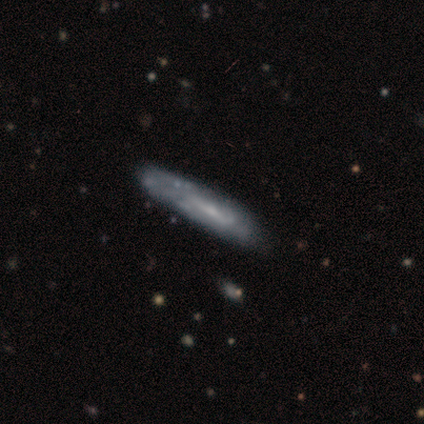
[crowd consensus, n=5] This appears to be a smooth galaxy with no disk features (40%, tied with featured or disk) that is cigar-shaped (100%). Merging: none (75%).